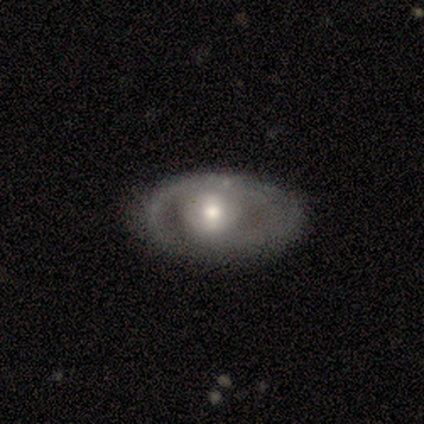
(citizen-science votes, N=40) A featured or disk galaxy (72%) with a weak bar (52%), no spiral arms (66%) and a moderate central bulge (55%).

Vote fractions:
- Smooth or featured? featured or disk: 72% / smooth: 22% / star or artifact: 5%
- Edge-on disk? no: 100% / yes: 0%
- Bar? weak: 52% / no: 41% / strong: 7%
- Spiral arms? no: 66% / yes: 34%
- Bulge size? moderate: 55% / large: 24% / small: 21% / dominant: 0% / none: 0%
- Merging? none: 76% / minor disturbance: 11% / major disturbance: 11% / merger: 3%